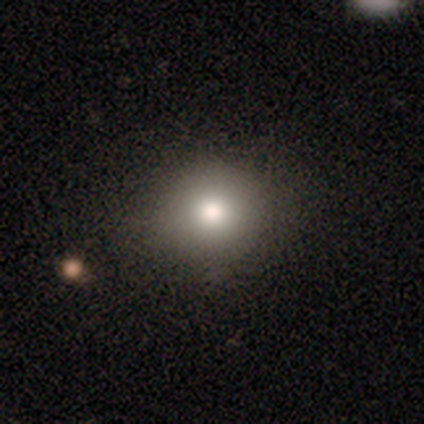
Smooth or featured: smooth — 76% (featured or disk — 16%)
How rounded: round — 89% (in between — 11%)
Merging: none — 91% (major disturbance — 6%)